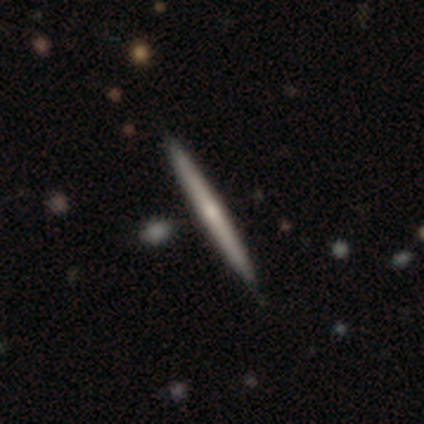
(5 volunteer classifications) Overall: featured or disk (100%). Edge-on disk: yes (100%). Edge-on bulge: rounded (60%; none 40%). Merging: none (80%).